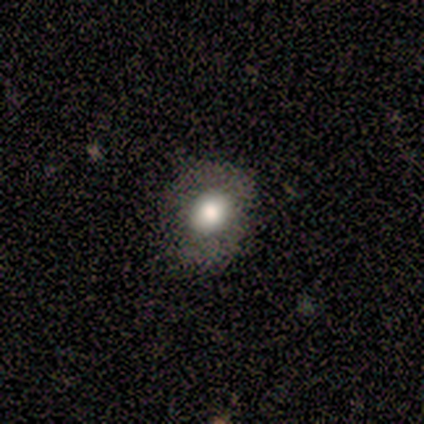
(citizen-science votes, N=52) smooth_or_featured: smooth (p=0.65) [alt: featured or disk p=0.25]
how_rounded: round (p=0.56) [alt: in between p=0.41]
merging: none (p=0.64) [alt: minor disturbance p=0.28]